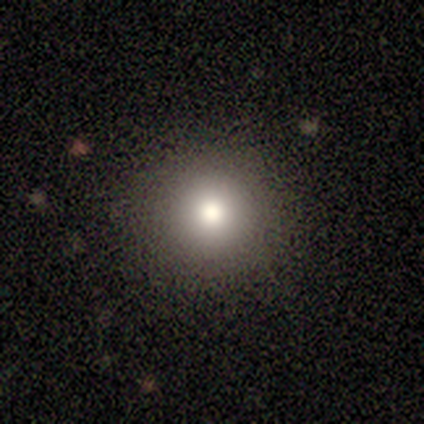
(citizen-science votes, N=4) Consensus on every question: smooth or featured — smooth (100%); how rounded — round (100%); merging — none (100%).